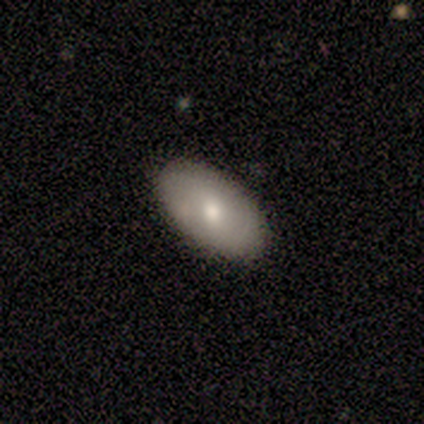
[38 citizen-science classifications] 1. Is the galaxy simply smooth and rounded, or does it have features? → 63% smooth, 29% featured or disk, 8% star or artifact.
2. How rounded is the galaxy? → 92% in between, 4% round, 4% cigar-shaped.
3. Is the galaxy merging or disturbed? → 91% none, 9% minor disturbance, 0% major disturbance, 0% merger.